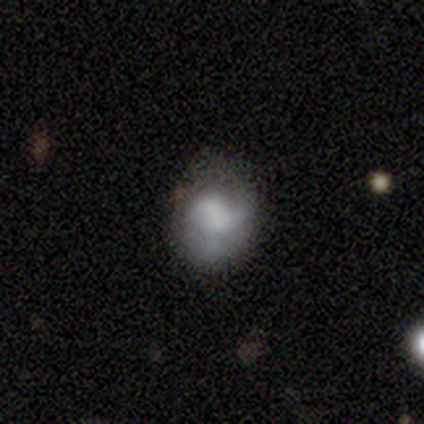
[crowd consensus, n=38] Volunteers were most divided on "smooth or featured": smooth: 50%, featured or disk: 42%, star or artifact: 8%. More confident: how rounded — round (63%); merging — none (54%).